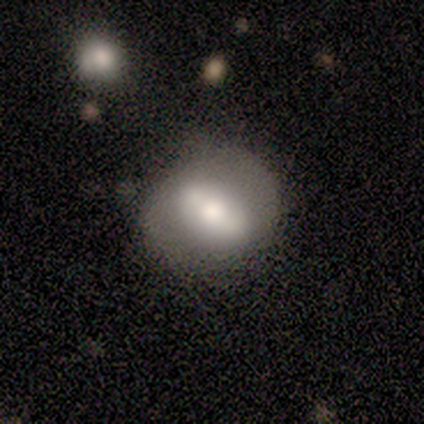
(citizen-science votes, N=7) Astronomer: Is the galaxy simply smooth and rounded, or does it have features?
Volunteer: featured or disk — 57% (runner-up: smooth, 43%).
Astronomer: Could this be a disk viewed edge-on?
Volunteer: no — 75%.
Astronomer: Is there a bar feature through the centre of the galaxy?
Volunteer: no — 67%.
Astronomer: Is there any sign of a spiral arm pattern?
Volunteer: no — 67%.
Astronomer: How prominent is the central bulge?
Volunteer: moderate — 67%.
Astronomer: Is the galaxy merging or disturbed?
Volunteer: none — 57%.